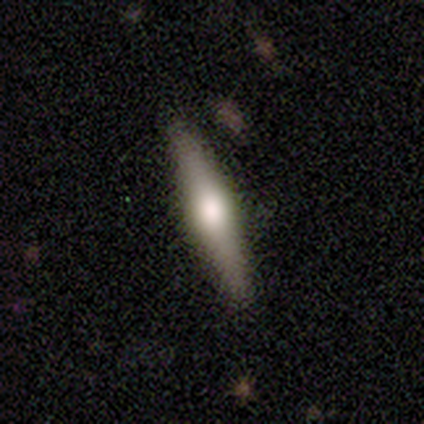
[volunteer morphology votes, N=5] Q: Smooth or featured?
A: featured or disk (60%); runner-up: smooth (40%)
Q: Edge-on disk?
A: yes (100%)
Q: Edge-on bulge?
A: rounded (100%)
Q: Merging?
A: none (100%)